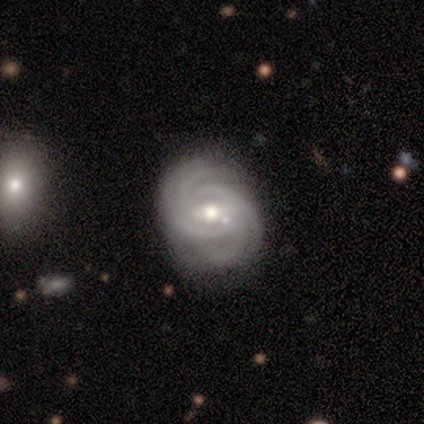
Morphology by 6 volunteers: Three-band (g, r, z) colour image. It shows a featured or disk galaxy (100%) with a weak bar (67%), 4 (33%, tied with can't tell) medium (83%) spiral arms (100%) and a moderate central bulge (83%). Merging: none (67%).